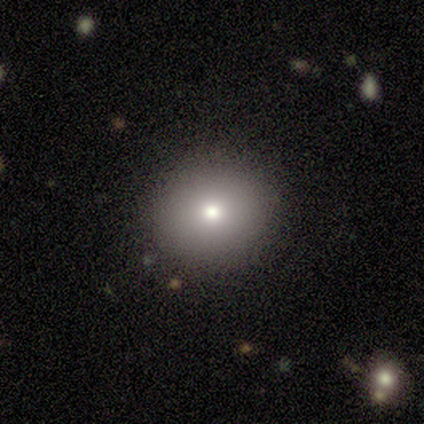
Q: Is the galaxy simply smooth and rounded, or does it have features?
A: smooth — 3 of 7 (43%, tied with featured or disk).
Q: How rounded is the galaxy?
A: round — 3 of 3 (100%).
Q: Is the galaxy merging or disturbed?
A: none — 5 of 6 (83%).